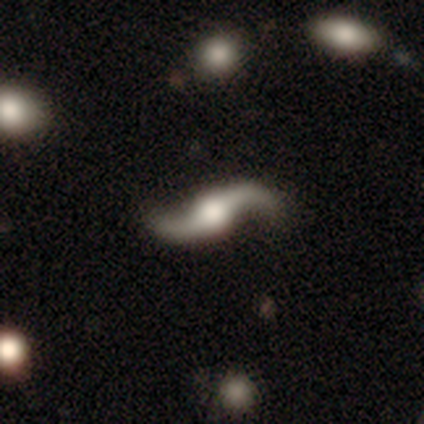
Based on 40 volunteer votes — Q: Smooth or featured?
A: featured or disk (95%); runner-up: smooth (2%)
Q: Edge-on disk?
A: no (95%); runner-up: yes (5%)
Q: Bar?
A: no (58%); runner-up: strong (22%)
Q: Spiral arms?
A: yes (100%)
Q: Spiral winding?
A: loose (100%)
Q: Spiral arm count?
A: 2 (94%); runner-up: 1 (3%)
Q: Bulge size?
A: moderate (47%); runner-up: large (39%)
Q: Merging?
A: none (64%); runner-up: minor disturbance (5%)